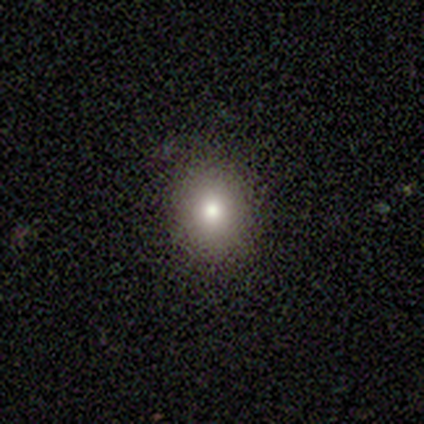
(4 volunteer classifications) Volunteers were most divided on "smooth or featured" (2-way tie): smooth: 50%, featured or disk: 50%, star or artifact: 0%; "how rounded" (2-way tie): round: 50%, in between: 50%, cigar-shaped: 0%. More confident: merging — none (100%).